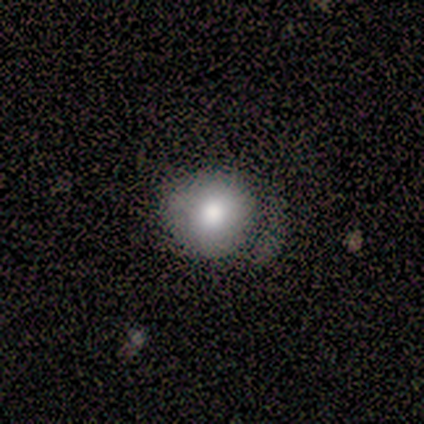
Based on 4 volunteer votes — A smooth galaxy with no disk features (50%) that is round (100%).

Vote fractions:
- Smooth or featured? smooth: 50% / featured or disk: 25% / star or artifact: 25%
- How rounded? round: 100% / in between: 0% / cigar-shaped: 0%
- Merging? minor disturbance: 67% / major disturbance: 33% / none: 0% / merger: 0%